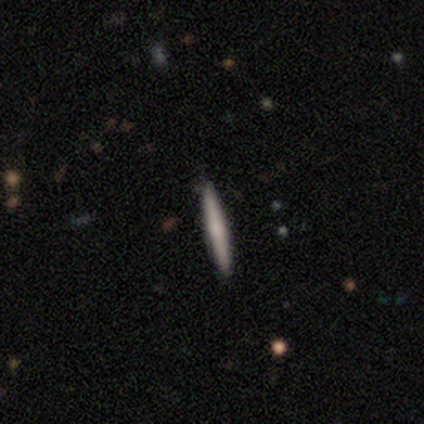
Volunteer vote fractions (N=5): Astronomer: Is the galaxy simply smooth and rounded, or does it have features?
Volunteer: featured or disk — 60% (runner-up: smooth, 40%).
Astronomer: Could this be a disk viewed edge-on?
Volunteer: yes — 100%.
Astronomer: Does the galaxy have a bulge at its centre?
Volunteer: none — 67%.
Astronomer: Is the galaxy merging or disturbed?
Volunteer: none — 100%.